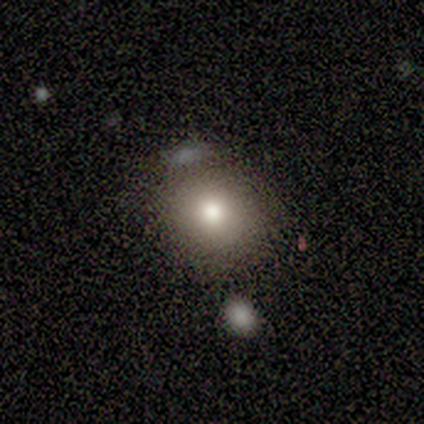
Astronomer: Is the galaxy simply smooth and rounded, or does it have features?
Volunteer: smooth — 80%.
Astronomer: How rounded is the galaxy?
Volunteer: round — 100%.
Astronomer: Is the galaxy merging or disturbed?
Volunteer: none — 40%, tied with minor disturbance at 40%.